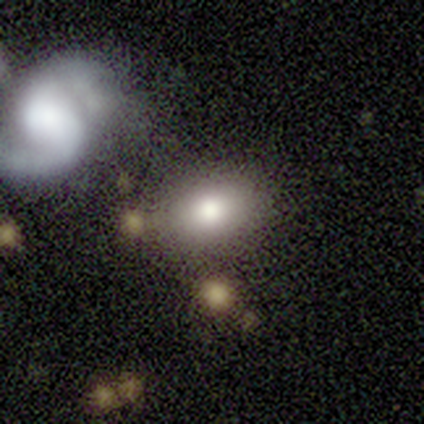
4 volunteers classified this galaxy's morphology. smooth 100%, featured or disk 0%, star or artifact 0%. Down the decision tree: how rounded — in between (100%); merging — none (75%).